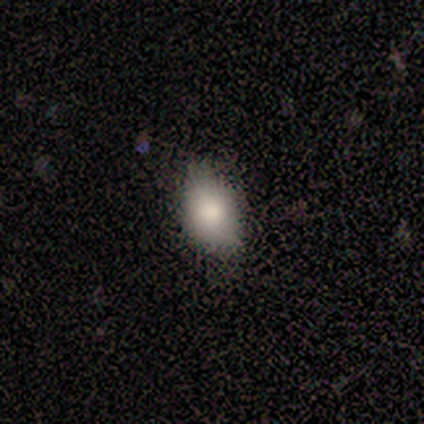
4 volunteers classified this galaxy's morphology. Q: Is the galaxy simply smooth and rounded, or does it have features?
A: smooth — 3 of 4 (75%).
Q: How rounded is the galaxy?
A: in between — 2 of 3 (67%).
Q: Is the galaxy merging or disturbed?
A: none — 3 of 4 (75%).